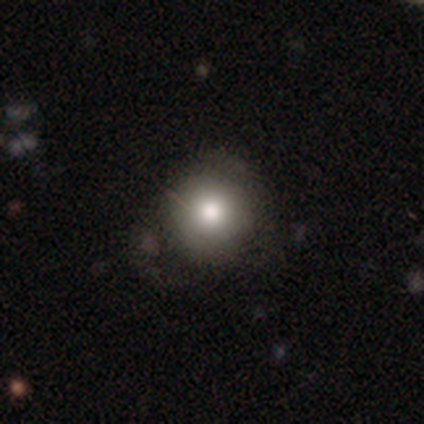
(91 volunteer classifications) smooth 78%, star or artifact 13%, featured or disk 9%. Down the decision tree: how rounded — round (96%); merging — none (75%).